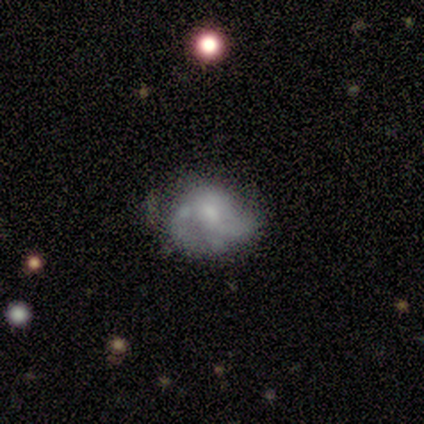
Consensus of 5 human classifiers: smooth-or-featured: smooth: 60% | featured or disk: 40% | star or artifact: 0%
  how-rounded: in between: 67% | round: 33% | cigar-shaped: 0%
  merging: minor disturbance: 100% | none: 0% | major disturbance: 0% | merger: 0%